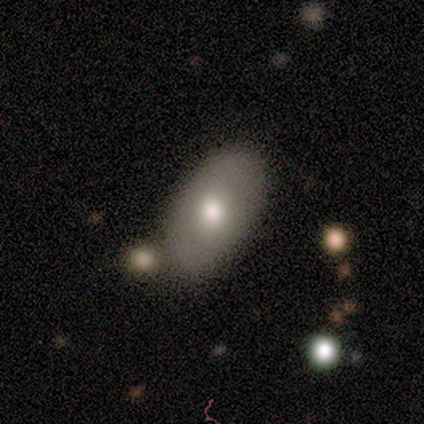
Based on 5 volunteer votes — This is clearly a smooth galaxy (80%). How rounded: clearly in between (100%). Merging: marginally none (40%, tied with minor disturbance).